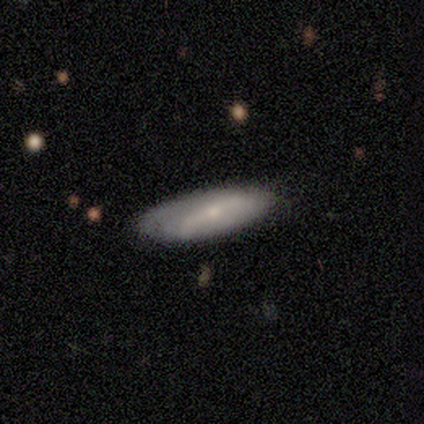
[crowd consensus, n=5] featured or disk 60%, smooth 40%, star or artifact 0%. Down the decision tree: edge-on disk — no (100%); bar — no (67%); spiral arms — yes (67%); spiral arm count — 1 (50%, tied with 2); spiral winding — tight (50%, tied with loose); bulge size — small (67%); merging — none (80%).